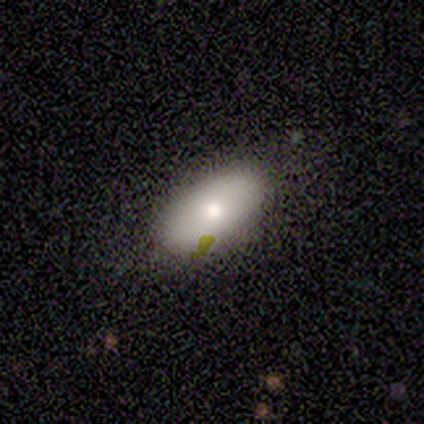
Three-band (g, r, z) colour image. It shows a smooth galaxy with no disk features (80%) that is in between round and cigar-shaped (100%). Merging: none (60%).